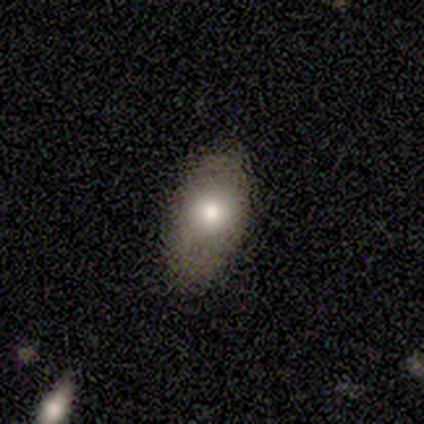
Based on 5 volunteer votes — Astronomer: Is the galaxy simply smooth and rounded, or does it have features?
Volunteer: smooth — 100%.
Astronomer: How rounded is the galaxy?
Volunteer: in between — 80%.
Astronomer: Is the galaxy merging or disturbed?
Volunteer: none — 80%.